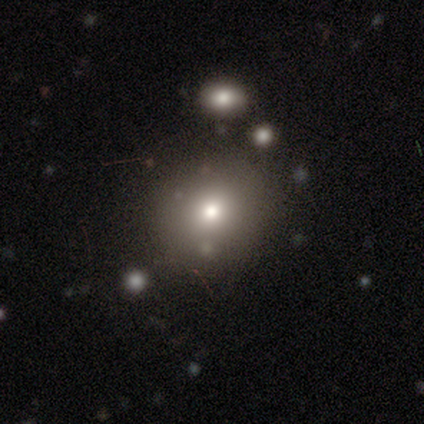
Smooth or featured? smooth (50%, tied with star or artifact)
How rounded? round (67%)
Merging? none (100%)